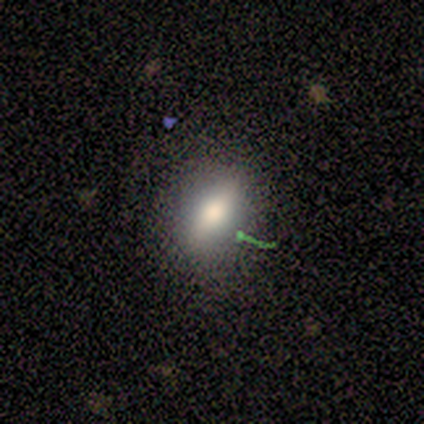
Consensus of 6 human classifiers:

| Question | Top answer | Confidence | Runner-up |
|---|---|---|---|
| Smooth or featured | smooth | 50% | featured or disk (33%) |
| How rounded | in between | 67% | round (33%) |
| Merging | none | 60% | minor disturbance (40%) |